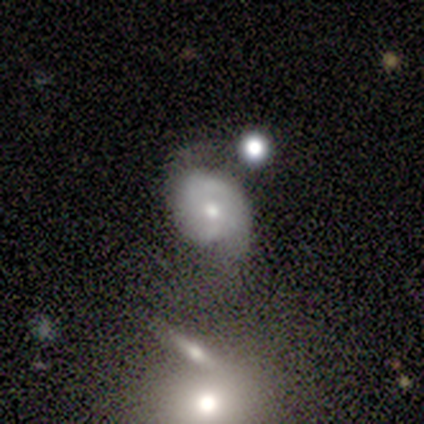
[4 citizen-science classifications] A star or artifact, not a galaxy (50%).